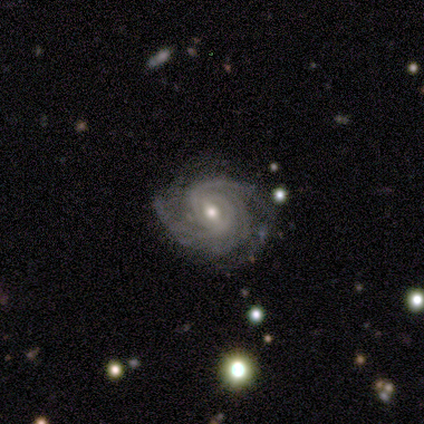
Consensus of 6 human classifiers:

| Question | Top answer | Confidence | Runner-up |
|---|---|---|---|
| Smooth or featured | featured or disk | 100% | — |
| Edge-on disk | no | 100% | — |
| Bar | weak | 100% | — |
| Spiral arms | yes | 100% | — |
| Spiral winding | tight | 83% | medium (17%) |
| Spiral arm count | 2 | 50% | 3 (17%) |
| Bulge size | small | 67% | moderate (33%) |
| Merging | none | 50% | tied: minor disturbance (50%) |